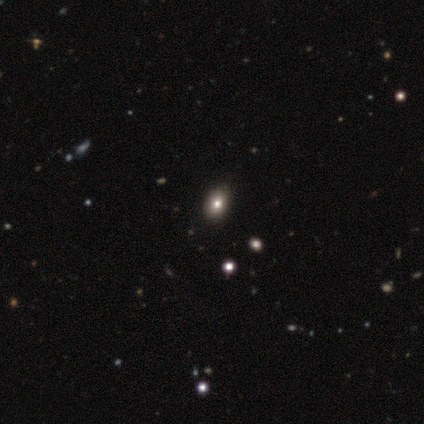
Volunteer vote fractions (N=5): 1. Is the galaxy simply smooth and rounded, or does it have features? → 60% smooth, 20% featured or disk, 20% star or artifact.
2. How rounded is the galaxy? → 67% in between, 33% round, 0% cigar-shaped.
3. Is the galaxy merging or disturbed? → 75% none, 25% major disturbance, 0% minor disturbance, 0% merger.